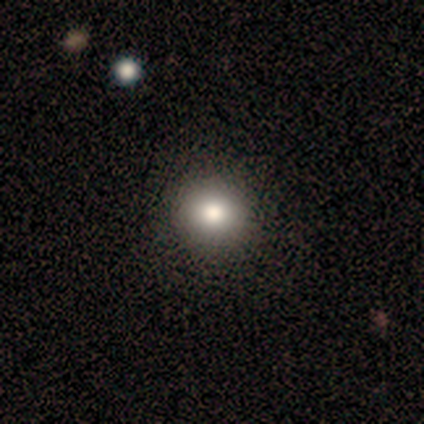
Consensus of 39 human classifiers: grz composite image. It shows a smooth galaxy with no disk features (79%) that is round (94%). Merging: none (85%).